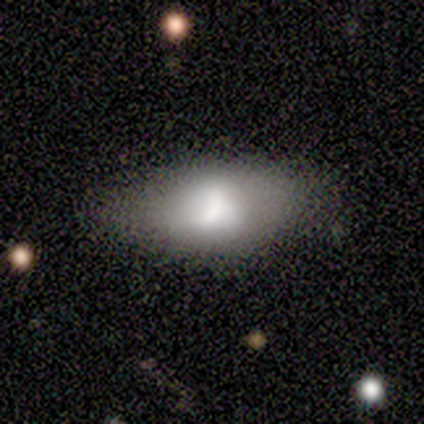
This appears to be a featured or disk galaxy (60%) with a strong bar (50%, tied with weak), 1 (100%) loose (100%) spiral arms (50%, tied with no) and a moderate central bulge (100%). Merging: none (60%).